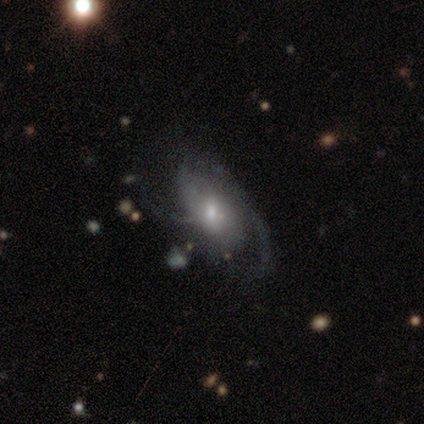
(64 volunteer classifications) Morphology: type=featured or disk (80%); edge-on=no (94%); bar=no (73%); spiral arms=yes (79%); winding=medium (47%); arm count=can't tell (45%); bulge=moderate (48%); merging=none (43%).